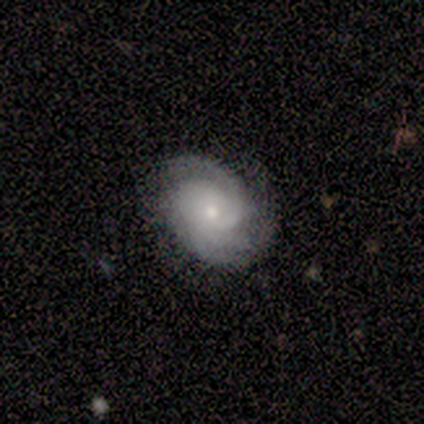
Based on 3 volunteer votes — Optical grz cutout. It shows a featured or disk galaxy (100%) with no bar (100%), 2 (67%) tight (33%, tied with medium and loose) spiral arms (100%) and a small central bulge (67%). Merging: none (100%).